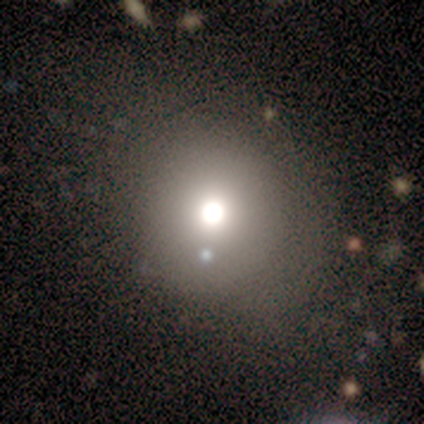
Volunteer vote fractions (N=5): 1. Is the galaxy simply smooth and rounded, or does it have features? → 80% smooth, 20% featured or disk, 0% star or artifact.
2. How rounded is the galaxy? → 100% round, 0% in between, 0% cigar-shaped.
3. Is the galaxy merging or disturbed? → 80% none, 20% merger, 0% minor disturbance, 0% major disturbance.